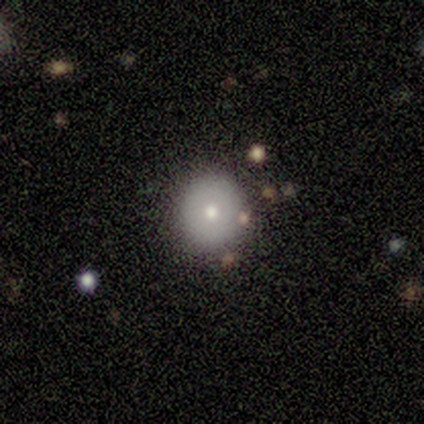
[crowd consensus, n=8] Smooth or featured?
  - smooth: 100% *
  - featured or disk: 0%
  - star or artifact: 0%
How rounded?
  - round: 100% *
  - in between: 0%
  - cigar-shaped: 0%
Merging?
  - none: 88% *
  - minor disturbance: 12%
  - major disturbance: 0%
  - merger: 0%